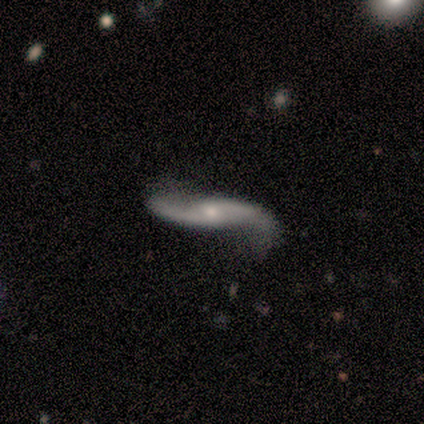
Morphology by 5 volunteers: type=featured or disk (80%); edge-on=no (100%); bar=no (50%); spiral arms=yes (100%); winding=loose (75%); arm count=2 (100%); bulge=moderate (50%, tied with small); merging=none (60%).